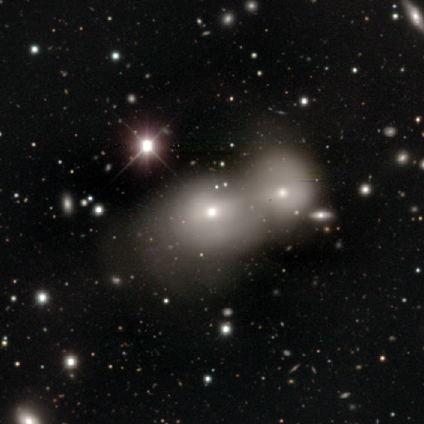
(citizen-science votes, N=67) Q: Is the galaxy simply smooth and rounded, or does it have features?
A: smooth — 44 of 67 (66%).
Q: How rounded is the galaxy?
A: round — 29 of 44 (66%).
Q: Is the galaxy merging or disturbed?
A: merger — 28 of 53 (53%).